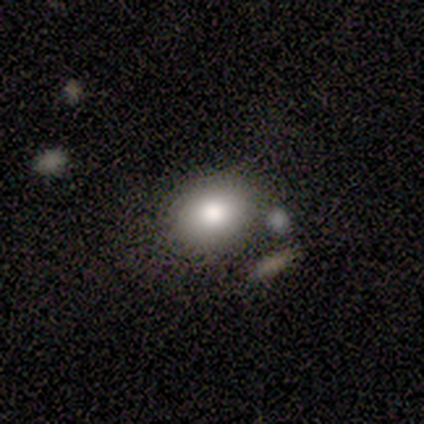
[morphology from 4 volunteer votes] This is clearly a smooth galaxy (100%). How rounded: clearly in between (100%). Merging: likely none (75%).